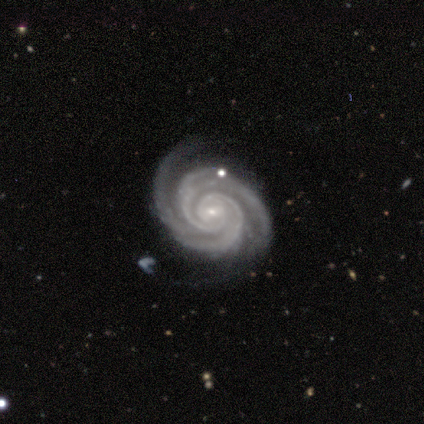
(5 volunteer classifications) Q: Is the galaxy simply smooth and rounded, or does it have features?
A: featured or disk — 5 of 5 (100%).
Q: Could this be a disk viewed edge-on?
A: no — 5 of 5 (100%).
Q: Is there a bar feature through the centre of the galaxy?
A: weak — 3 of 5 (60%).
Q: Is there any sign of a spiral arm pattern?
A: yes — 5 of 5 (100%).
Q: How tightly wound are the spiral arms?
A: tight — 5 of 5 (100%).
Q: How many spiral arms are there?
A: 2 — 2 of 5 (40%, tied with 3).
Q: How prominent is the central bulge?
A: small — 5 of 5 (100%).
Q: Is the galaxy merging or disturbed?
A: none — 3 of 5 (60%).